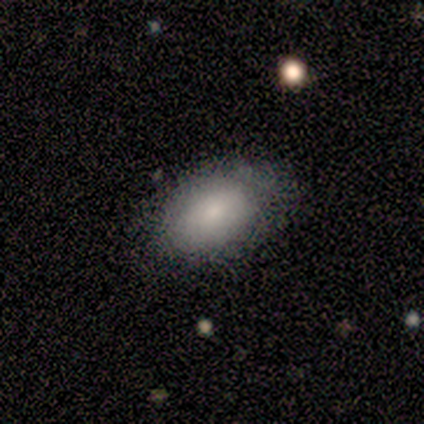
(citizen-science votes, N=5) Overall: smooth (60%; featured or disk 20%). How rounded: in between (100%). Merging: none (75%).